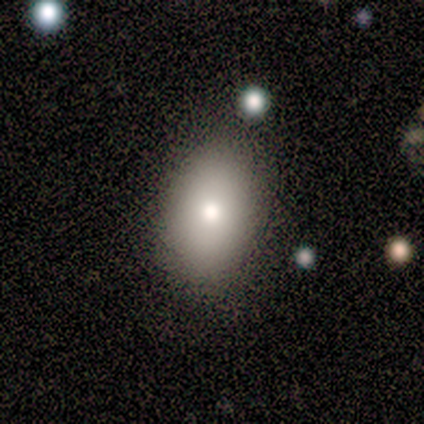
smooth 71%, featured or disk 29%, star or artifact 0%. Down the decision tree: how rounded — in between (80%); merging — none (100%).